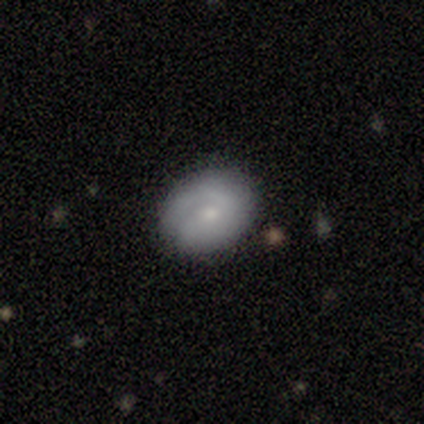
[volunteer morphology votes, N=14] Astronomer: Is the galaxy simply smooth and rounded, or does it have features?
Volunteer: smooth — 50%, tied with featured or disk at 50%.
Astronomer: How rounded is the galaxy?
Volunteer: round — 86%.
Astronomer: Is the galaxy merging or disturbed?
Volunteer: none — 86%.